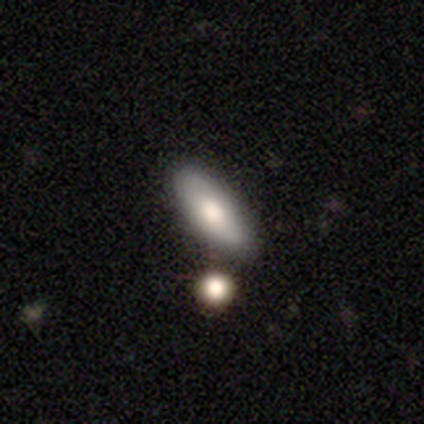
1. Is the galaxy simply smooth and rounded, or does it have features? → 100% smooth, 0% featured or disk, 0% star or artifact.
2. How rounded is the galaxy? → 80% in between, 20% cigar-shaped, 0% round.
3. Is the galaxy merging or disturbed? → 80% none, 20% minor disturbance, 0% major disturbance, 0% merger.